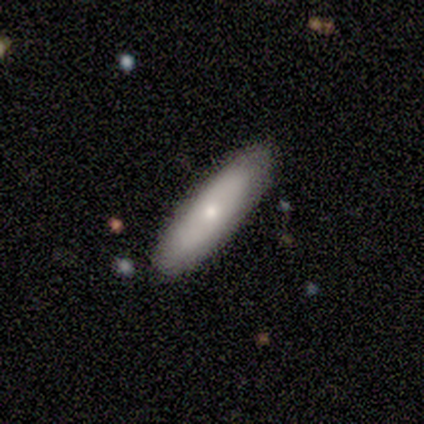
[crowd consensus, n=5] smooth-or-featured: smooth: 60% | featured or disk: 40% | star or artifact: 0%
  how-rounded: cigar-shaped: 67% | in between: 33% | round: 0%
  merging: none: 100% | minor disturbance: 0% | major disturbance: 0% | merger: 0%